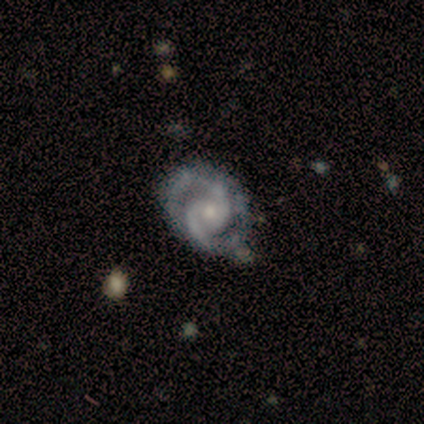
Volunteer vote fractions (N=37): A featured or disk galaxy (100%) with no bar (65%), 2 (95%) tight (62%) spiral arms (100%) and a small central bulge (57%).

Vote fractions:
- Smooth or featured? featured or disk: 100% / smooth: 0% / star or artifact: 0%
- Edge-on disk? no: 100% / yes: 0%
- Bar? no: 65% / weak: 24% / strong: 11%
- Spiral arms? yes: 100% / no: 0%
- Spiral winding? tight: 62% / medium: 38% / loose: 0%
- Spiral arm count? 2: 95% / 3: 3% / 4: 3% / 1: 0% / more than 4: 0% / can't tell: 0%
- Bulge size? small: 57% / moderate: 41% / dominant: 3% / large: 0% / none: 0%
- Merging? none: 68% / minor disturbance: 30% / merger: 3% / major disturbance: 0%